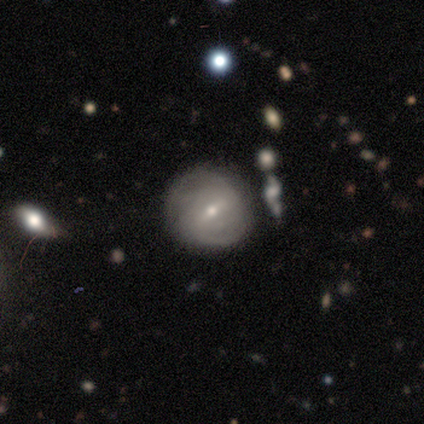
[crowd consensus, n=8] A featured or disk galaxy (88%) with a weak bar (67%), tight (60%) spiral arms (83%) and a small central bulge (83%). Merging: none (75%).